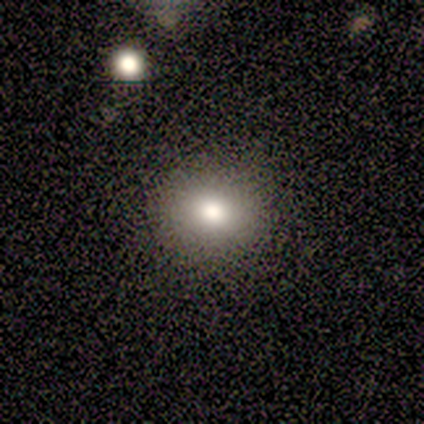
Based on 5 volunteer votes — Overall: smooth (100%). How rounded: round (60%; in between 40%). Merging: none (100%).